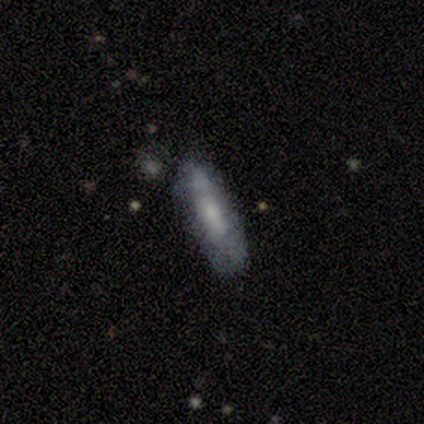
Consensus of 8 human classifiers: Morphology: type=featured or disk (62%); edge-on=no (80%); bar=weak (50%, tied with no); spiral arms=no (75%); bulge=moderate (50%); merging=none (62%).